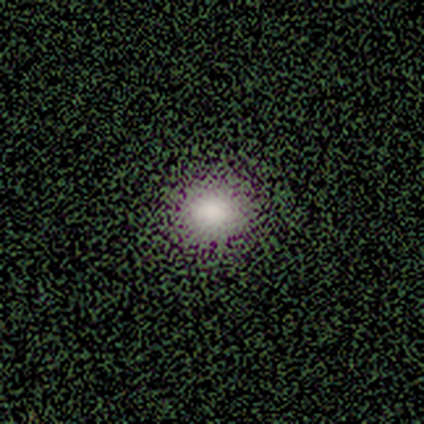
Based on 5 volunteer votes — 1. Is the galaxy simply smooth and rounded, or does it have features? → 60% smooth, 20% featured or disk, 20% star or artifact.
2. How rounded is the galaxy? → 67% round, 33% in between, 0% cigar-shaped.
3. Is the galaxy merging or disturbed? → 100% none, 0% minor disturbance, 0% major disturbance, 0% merger.